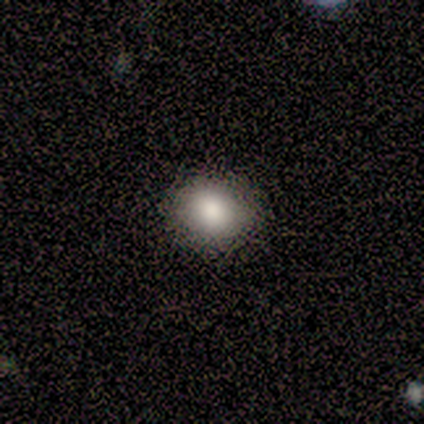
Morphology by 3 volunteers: Smooth or featured: smooth — 100%
How rounded: round — 67% (in between — 33%)
Merging: none — 100%